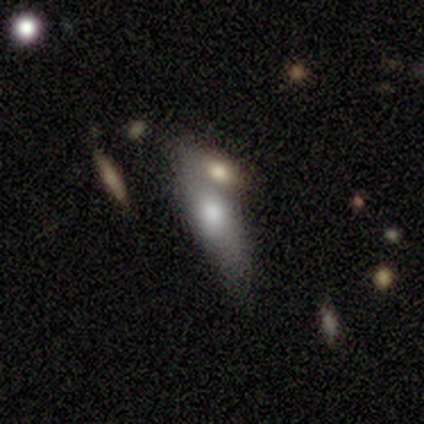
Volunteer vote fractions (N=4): Q: Smooth or featured?
A: smooth (50%); runner-up: featured or disk (25%)
Q: How rounded?
A: in between (50%); tied with: cigar-shaped (50%)
Q: Merging?
A: merger (100%)